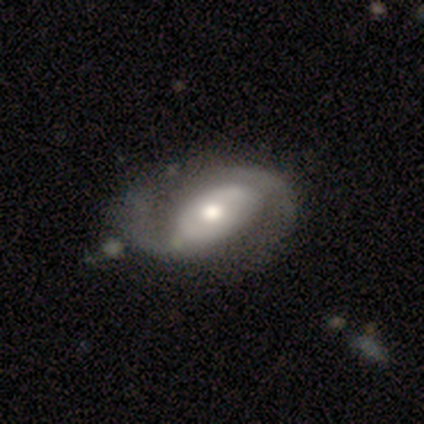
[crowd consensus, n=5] Morphology: type=featured or disk (100%); edge-on=no (100%); bar=strong (60%); spiral arms=yes (60%); winding=tight (33%, tied with medium and loose); arm count=2 (100%); bulge=moderate (60%); merging=none (80%).